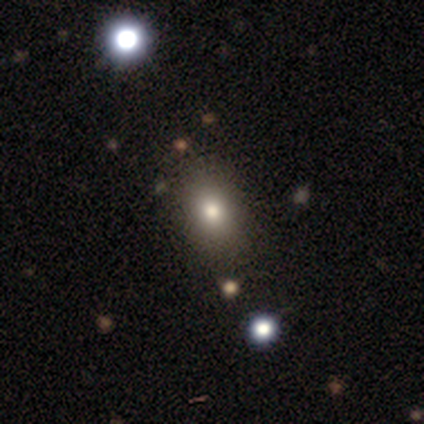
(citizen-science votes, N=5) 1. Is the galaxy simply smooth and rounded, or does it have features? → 80% smooth, 20% star or artifact, 0% featured or disk.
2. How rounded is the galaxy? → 50% round (tied), 50% in between (tied), 0% cigar-shaped.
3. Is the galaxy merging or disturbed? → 75% none, 25% minor disturbance, 0% major disturbance, 0% merger.